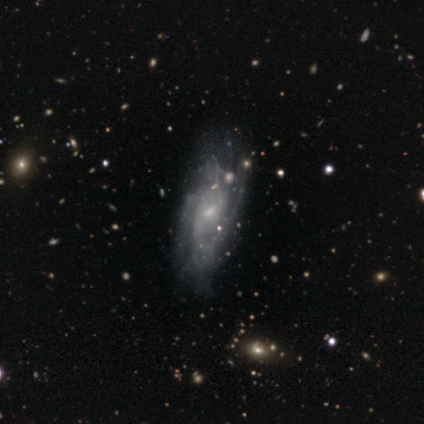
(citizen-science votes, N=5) Q: Smooth or featured?
A: featured or disk (100%)
Q: Edge-on disk?
A: no (100%)
Q: Bar?
A: weak (60%); runner-up: no (40%)
Q: Spiral arms?
A: yes (60%); runner-up: no (40%)
Q: Spiral winding?
A: medium (67%); runner-up: tight (33%)
Q: Spiral arm count?
A: can't tell (67%); runner-up: 3 (33%)
Q: Bulge size?
A: small (100%)
Q: Merging?
A: none (60%); runner-up: minor disturbance (20%)